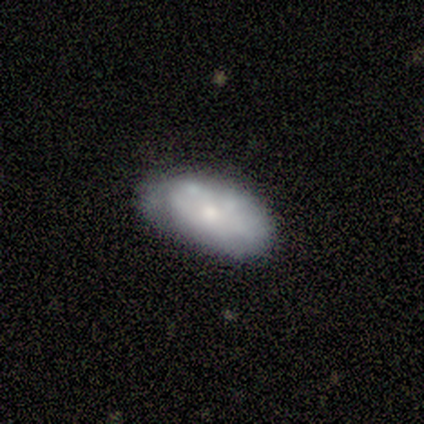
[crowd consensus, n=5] smooth 80%, star or artifact 20%, featured or disk 0%. Down the decision tree: how rounded — in between (100%); merging — none (50%, tied with minor disturbance).